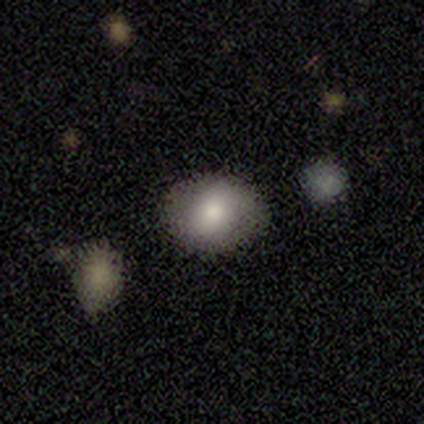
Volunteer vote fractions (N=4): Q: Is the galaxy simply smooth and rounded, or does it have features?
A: smooth — 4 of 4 (100%).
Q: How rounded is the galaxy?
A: round — 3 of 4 (75%).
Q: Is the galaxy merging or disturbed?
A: none — 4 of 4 (100%).